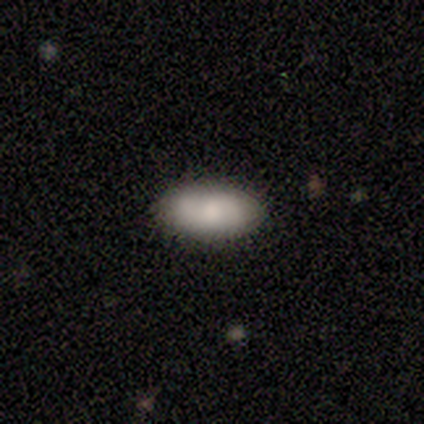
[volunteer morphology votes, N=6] smooth-or-featured: smooth: 100% | featured or disk: 0% | star or artifact: 0%
  how-rounded: in between: 100% | round: 0% | cigar-shaped: 0%
  merging: none: 83% | minor disturbance: 17% | major disturbance: 0% | merger: 0%